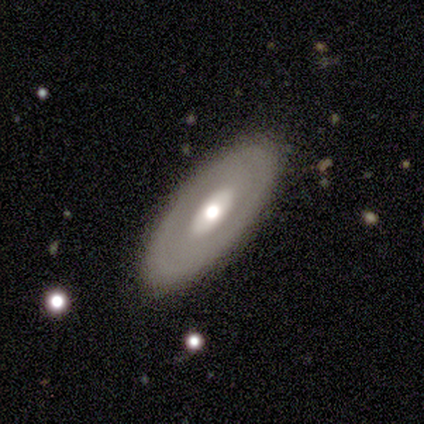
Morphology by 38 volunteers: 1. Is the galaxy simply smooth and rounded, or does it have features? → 58% featured or disk, 34% smooth, 8% star or artifact.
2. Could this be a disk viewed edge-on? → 77% no, 23% yes.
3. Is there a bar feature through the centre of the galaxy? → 82% no, 12% strong, 6% weak.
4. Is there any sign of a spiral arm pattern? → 94% no, 6% yes.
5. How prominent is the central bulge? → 88% moderate, 6% large, 6% small, 0% dominant, 0% none.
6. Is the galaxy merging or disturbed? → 89% none, 6% minor disturbance, 3% major disturbance, 3% merger.